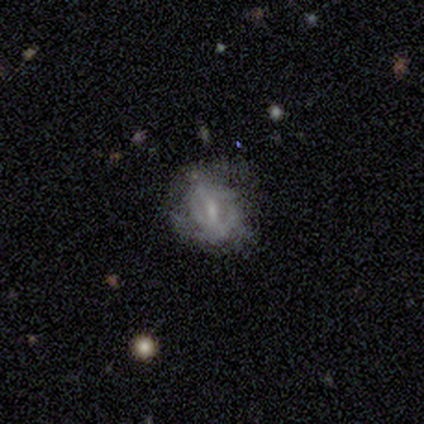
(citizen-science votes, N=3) Overall: featured or disk (67%; smooth 33%). Edge-on disk: no (100%). Bar: strong (50%, tied with weak). Spiral arms: yes (50%, tied with no). Spiral arm count: can't tell (100%). Spiral winding: medium (100%). Bulge size: moderate (50%, tied with none). Merging: none (67%; minor disturbance 33%).